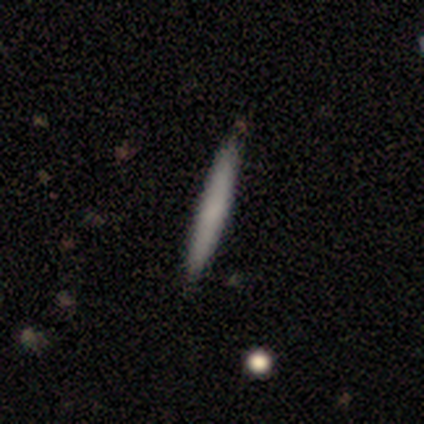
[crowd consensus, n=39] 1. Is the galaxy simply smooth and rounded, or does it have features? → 67% smooth, 28% featured or disk, 5% star or artifact.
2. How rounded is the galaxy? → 100% cigar-shaped, 0% round, 0% in between.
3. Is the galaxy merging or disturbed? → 97% none, 3% minor disturbance, 0% major disturbance, 0% merger.